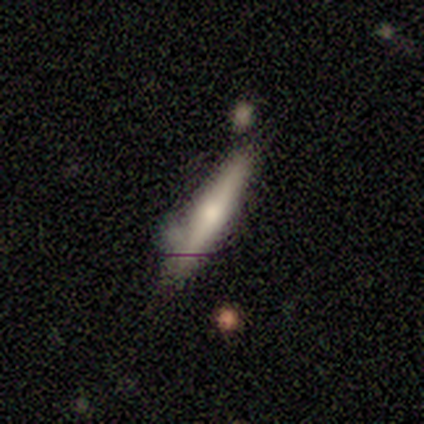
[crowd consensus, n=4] smooth_or_featured: smooth (p=0.50) [tied with: featured or disk p=0.50]
how_rounded: round (p=0.50) [tied with: in between p=0.50]
merging: minor disturbance (p=0.75) [alt: merger p=0.25]